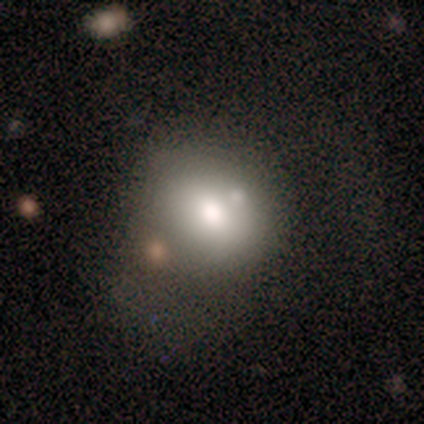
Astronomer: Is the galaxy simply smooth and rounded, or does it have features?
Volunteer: smooth — 60% (runner-up: star or artifact, 40%).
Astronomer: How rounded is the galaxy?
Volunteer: in between — 67%.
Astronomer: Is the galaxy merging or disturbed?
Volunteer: none — 67%.